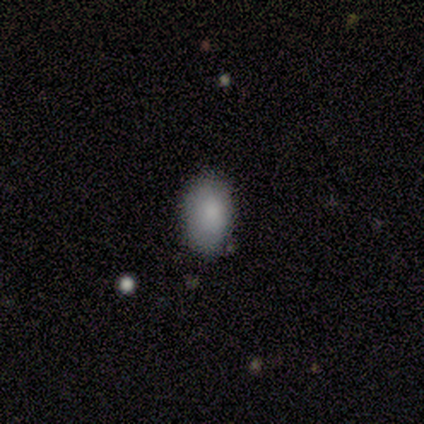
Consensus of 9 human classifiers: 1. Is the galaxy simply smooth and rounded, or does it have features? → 78% smooth, 11% featured or disk, 11% star or artifact.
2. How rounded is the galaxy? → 100% in between, 0% round, 0% cigar-shaped.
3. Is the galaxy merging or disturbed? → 75% none, 12% minor disturbance, 12% major disturbance, 0% merger.